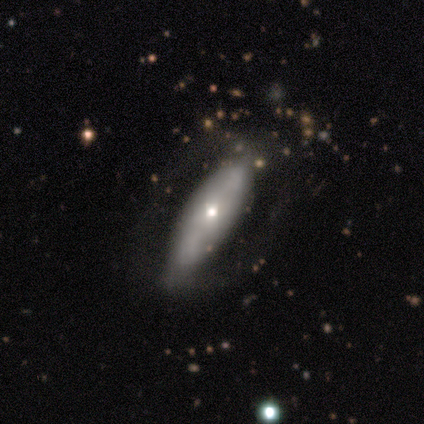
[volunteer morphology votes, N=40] This appears to be a smooth galaxy with no disk features (65%) that is cigar-shaped (65%). Merging: none (66%).